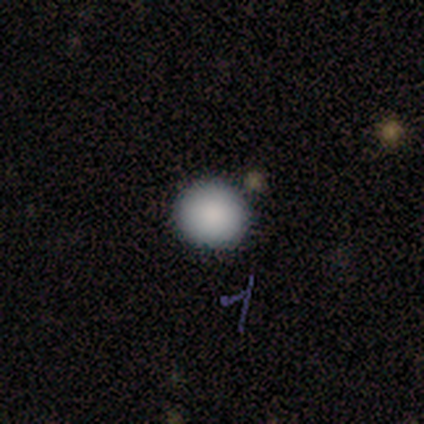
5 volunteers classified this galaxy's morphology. This is clearly a smooth galaxy (80%). How rounded: clearly round (100%). Merging: clearly none (80%).